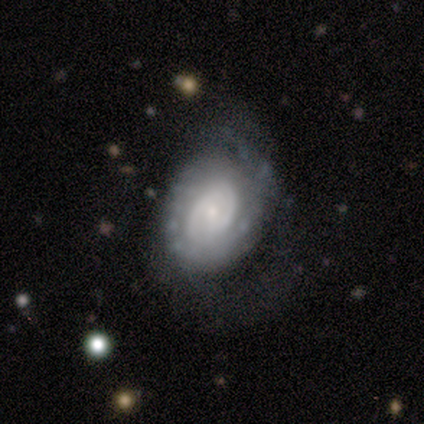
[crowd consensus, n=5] Smooth or featured?
  - smooth: 40% * (tied)
  - featured or disk: 40% * (tied)
  - star or artifact: 20%
How rounded?
  - in between: 100% *
  - round: 0%
  - cigar-shaped: 0%
Merging?
  - none: 75% *
  - minor disturbance: 25%
  - major disturbance: 0%
  - merger: 0%